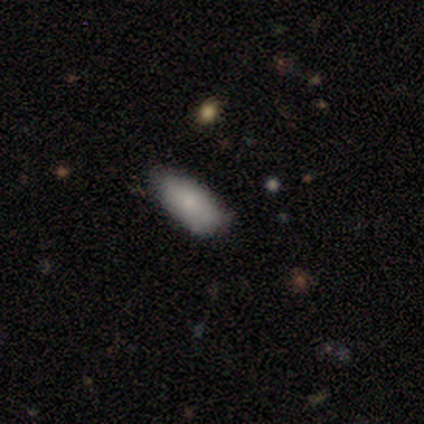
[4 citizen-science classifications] Volunteers were most divided on "how rounded" (3-way tie): round: 33%, in between: 33%, cigar-shaped: 33%. More confident: merging — none (100%); smooth or featured — smooth (75%).